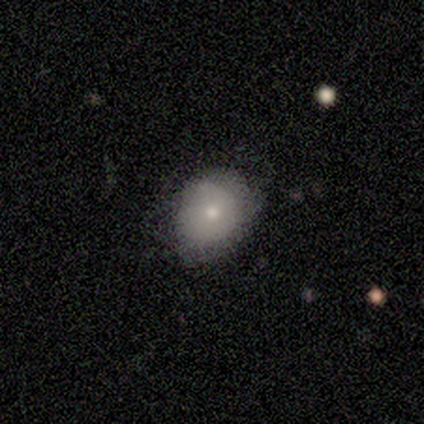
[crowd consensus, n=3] Q: Smooth or featured?
A: smooth (100%)
Q: How rounded?
A: in between (67%); runner-up: round (33%)
Q: Merging?
A: minor disturbance (67%); runner-up: none (33%)